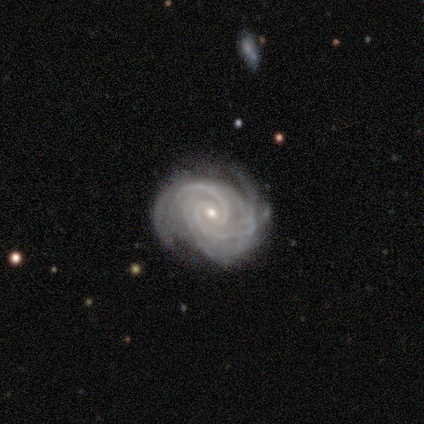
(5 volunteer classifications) This appears to be a featured or disk galaxy (80%) with a weak bar (50%, tied with no), 2 (50%, tied with 3) tight (75%) spiral arms (100%) and a moderate central bulge (50%, tied with small). Merging: none (75%).